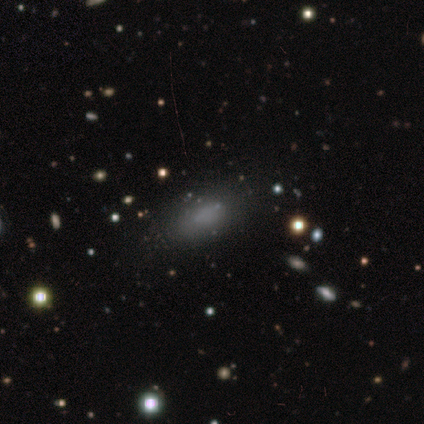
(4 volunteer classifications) smooth-or-featured: smooth: 100% | featured or disk: 0% | star or artifact: 0%
  how-rounded: in between: 100% | round: 0% | cigar-shaped: 0%
  merging: none: 100% | minor disturbance: 0% | major disturbance: 0% | merger: 0%